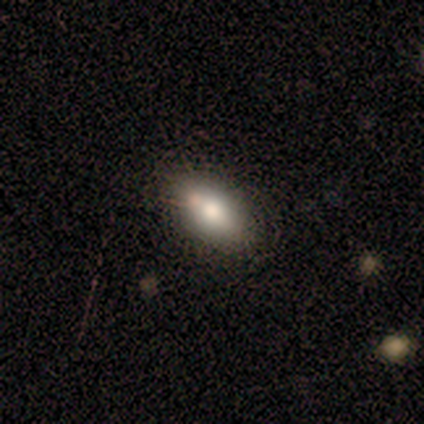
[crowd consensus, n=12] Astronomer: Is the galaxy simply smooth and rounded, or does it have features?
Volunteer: smooth — 75%.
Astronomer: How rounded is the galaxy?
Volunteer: in between — 100%.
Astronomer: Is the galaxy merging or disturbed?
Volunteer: none — 92%.